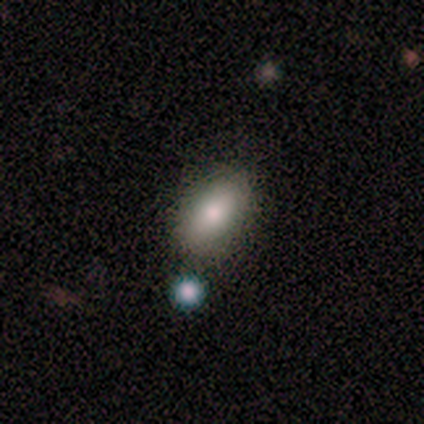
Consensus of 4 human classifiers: This is clearly a smooth galaxy (100%). How rounded: clearly in between (100%). Merging: clearly none (100%).